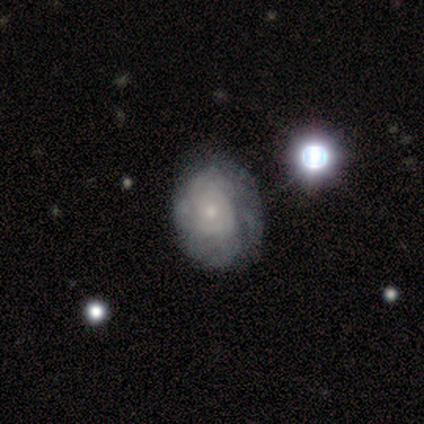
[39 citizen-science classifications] A featured or disk galaxy (79%) with no bar (84%), tight (75%) spiral arms (77%) and a small central bulge (71%).

Vote fractions:
- Smooth or featured? featured or disk: 79% / smooth: 18% / star or artifact: 3%
- Edge-on disk? no: 100% / yes: 0%
- Bar? no: 84% / weak: 16% / strong: 0%
- Spiral arms? yes: 77% / no: 23%
- Spiral winding? tight: 75% / medium: 21% / loose: 4%
- Spiral arm count? can't tell: 67% / 4: 12% / 3: 8% / more than 4: 8% / 1: 4% / 2: 0%
- Bulge size? small: 71% / moderate: 26% / none: 3% / dominant: 0% / large: 0%
- Merging? none: 55% / minor disturbance: 11% / merger: 8% / major disturbance: 5%